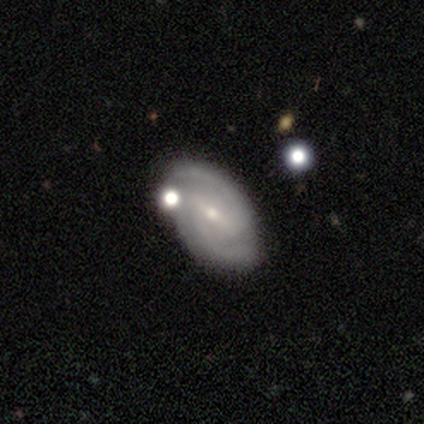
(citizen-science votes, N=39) A featured or disk galaxy (72%) with a weak bar (54%), 2 (92%) medium (60%) spiral arms (89%) and a small central bulge (64%).

Vote fractions:
- Smooth or featured? featured or disk: 72% / smooth: 15% / star or artifact: 13%
- Edge-on disk? no: 100% / yes: 0%
- Bar? weak: 54% / strong: 32% / no: 14%
- Spiral arms? yes: 89% / no: 11%
- Spiral winding? medium: 60% / tight: 24% / loose: 16%
- Spiral arm count? 2: 92% / can't tell: 8% / 1: 0% / 3: 0% / 4: 0% / more than 4: 0%
- Bulge size? small: 64% / moderate: 32% / none: 4% / dominant: 0% / large: 0%
- Merging? none: 71% / minor disturbance: 21% / major disturbance: 6% / merger: 3%